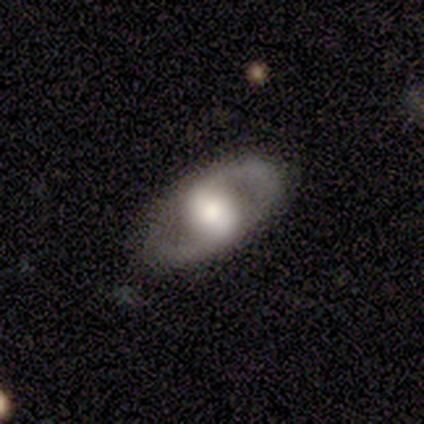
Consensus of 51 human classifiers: Volunteers were most divided on "bar": strong: 38%, no: 33%, weak: 28%. More confident: edge-on disk — no (93%); spiral arm count — 2 (92%); merging — none (92%); smooth or featured — featured or disk (82%); bulge size — large (67%); spiral arms — yes (64%); spiral winding — medium (60%).